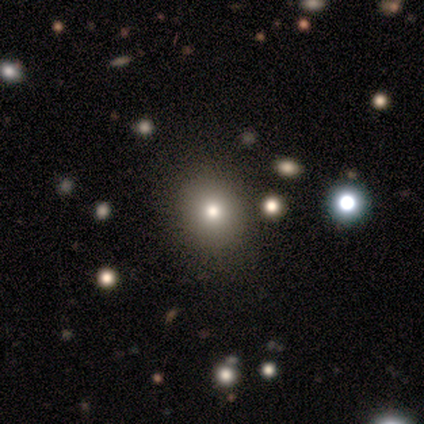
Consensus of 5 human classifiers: A smooth galaxy with no disk features (40%, tied with star or artifact) that is round (50%, tied with in between). Merging: none (100%).